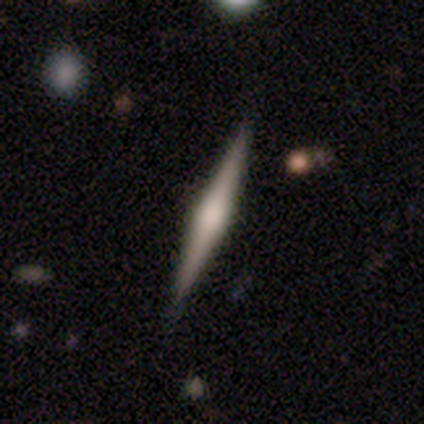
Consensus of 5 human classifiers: A smooth galaxy with no disk features (60%) that is cigar-shaped (100%).

Vote fractions:
- Smooth or featured? smooth: 60% / featured or disk: 40% / star or artifact: 0%
- How rounded? cigar-shaped: 100% / round: 0% / in between: 0%
- Merging? none: 100% / minor disturbance: 0% / major disturbance: 0% / merger: 0%